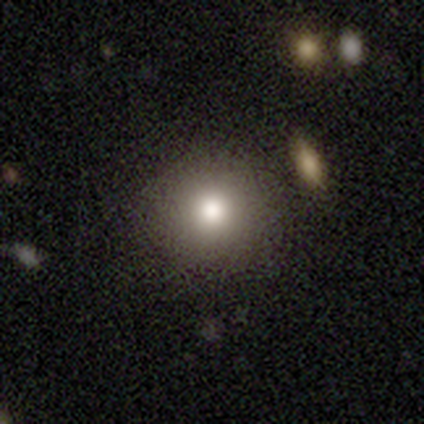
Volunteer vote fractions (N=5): smooth-or-featured: smooth: 60% | star or artifact: 40% | featured or disk: 0%
  how-rounded: round: 100% | in between: 0% | cigar-shaped: 0%
  merging: none: 100% | minor disturbance: 0% | major disturbance: 0% | merger: 0%